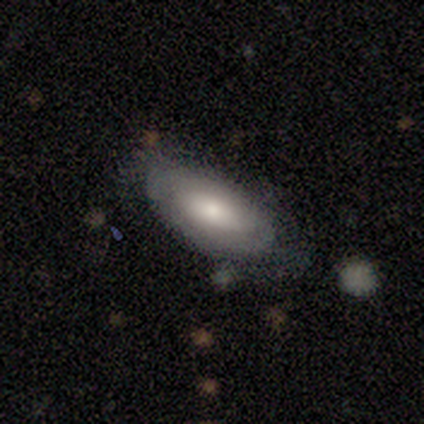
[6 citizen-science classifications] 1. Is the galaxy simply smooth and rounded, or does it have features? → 83% smooth, 17% featured or disk, 0% star or artifact.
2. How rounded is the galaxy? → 100% in between, 0% round, 0% cigar-shaped.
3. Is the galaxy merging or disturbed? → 50% none (tied), 50% minor disturbance (tied), 0% major disturbance, 0% merger.